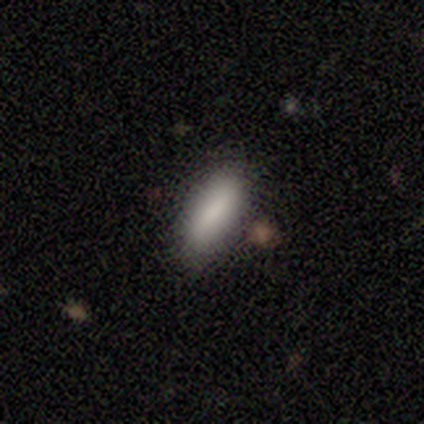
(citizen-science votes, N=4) smooth_or_featured: smooth (p=0.50) [tied with: featured or disk p=0.50]
how_rounded: in between (p=0.50) [tied with: cigar-shaped p=0.50]
merging: none (p=0.75) [alt: major disturbance p=0.25]